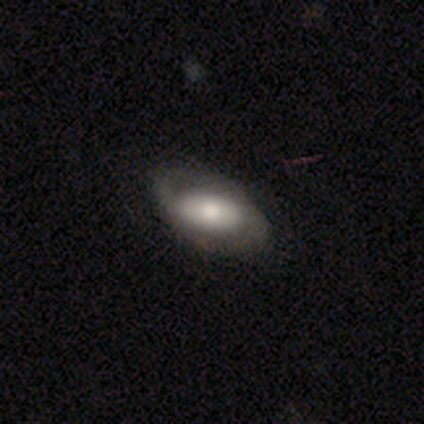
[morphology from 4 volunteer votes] This appears to be a smooth galaxy with no disk features (75%) that is in between round and cigar-shaped (100%). Merging: none (50%, tied with minor disturbance).